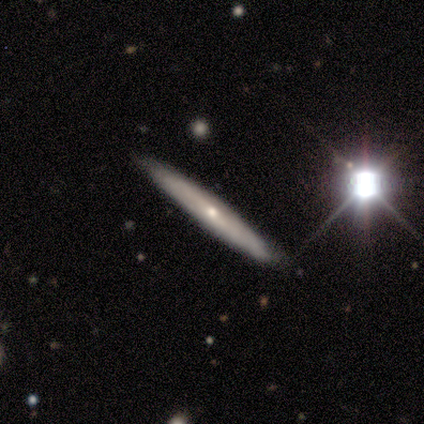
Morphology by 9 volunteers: This appears to be a featured or disk galaxy (56%) viewed edge-on (80%) with a rounded central bulge (75%). Merging: none (100%).